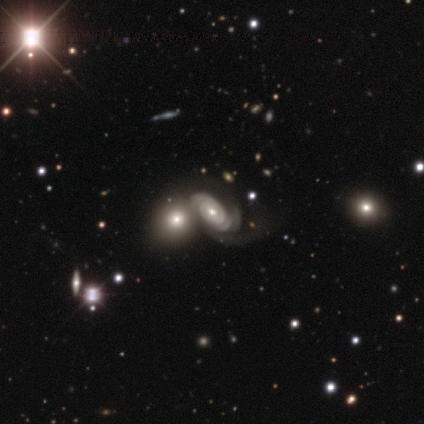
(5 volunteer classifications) This is clearly a featured or disk galaxy (100%). It is clearly not viewed edge-on (100%). Bar: likely no (60%). Spiral arm pattern: clearly yes (100%). Spiral arm count: clearly 2 (80%). Spiral winding: clearly tight (80%). Central bulge: clearly moderate (80%). Merging: clearly merger (80%).